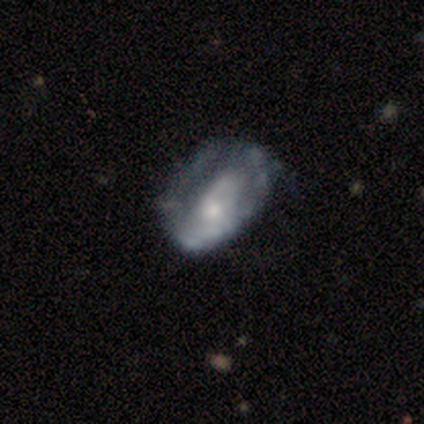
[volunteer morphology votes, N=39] Q: Smooth or featured?
A: featured or disk (54%); runner-up: smooth (33%)
Q: Edge-on disk?
A: no (100%)
Q: Bar?
A: no (76%); runner-up: weak (14%)
Q: Spiral arms?
A: no (71%); runner-up: yes (29%)
Q: Bulge size?
A: small (43%); runner-up: moderate (38%)
Q: Merging?
A: none (26%); runner-up: minor disturbance (18%)